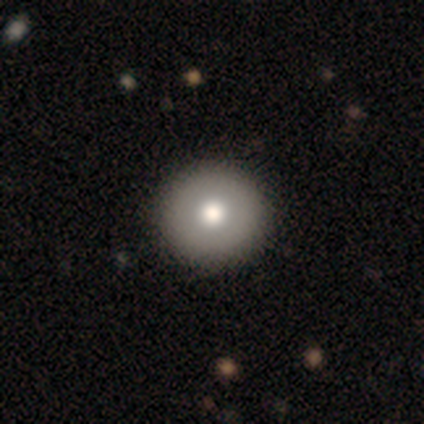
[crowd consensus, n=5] This is likely a smooth galaxy (60%). How rounded: clearly round (100%). Merging: likely none (75%).